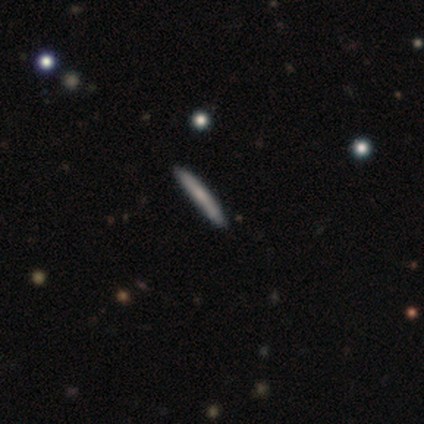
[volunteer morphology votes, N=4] A smooth galaxy with no disk features (50%, tied with featured or disk) that is cigar-shaped (100%). Merging: none (50%).